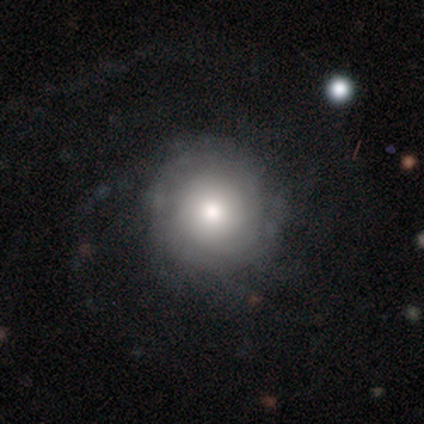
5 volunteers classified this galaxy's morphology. type=featured or disk (60%); edge-on=no (100%); bar=no (100%); spiral arms=yes (100%); winding=tight (33%, tied with medium and loose); arm count=1 (33%, tied with 2 and can't tell); bulge=moderate (67%); merging=none (100%).